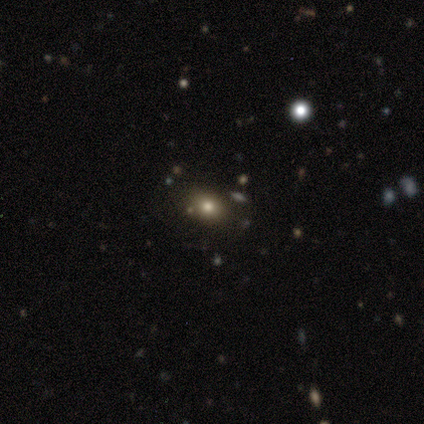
Volunteers were most divided on "how rounded": in between: 60%, round: 40%, cigar-shaped: 0%. More confident: smooth or featured — smooth (100%); merging — none (100%).